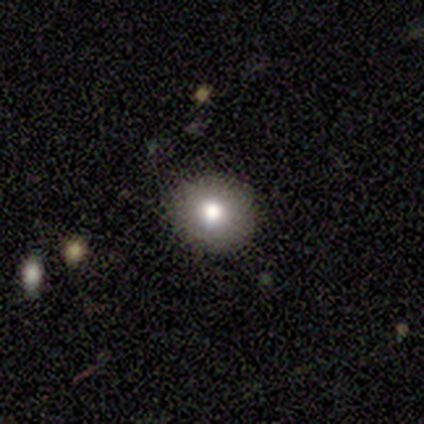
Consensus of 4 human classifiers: A smooth galaxy with no disk features (75%) that is in between round and cigar-shaped (67%). Merging: none (100%).